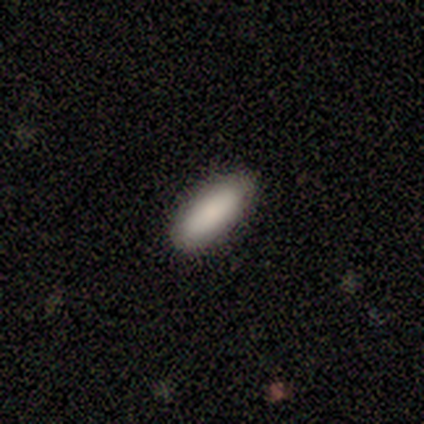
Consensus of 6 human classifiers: A smooth galaxy with no disk features (100%) that is in between round and cigar-shaped (67%). Merging: none (100%).